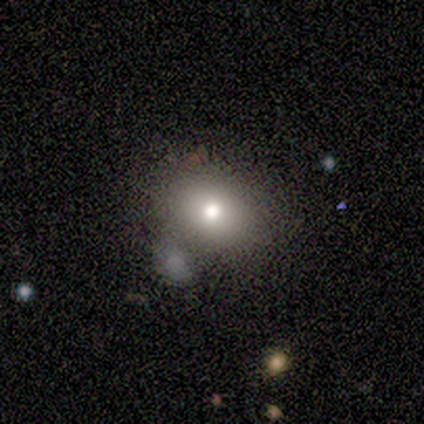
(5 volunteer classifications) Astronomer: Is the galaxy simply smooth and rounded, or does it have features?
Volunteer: smooth — 80%.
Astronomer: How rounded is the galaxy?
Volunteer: round — 50%, tied with in between at 50%.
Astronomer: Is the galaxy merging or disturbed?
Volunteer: none — 75%.